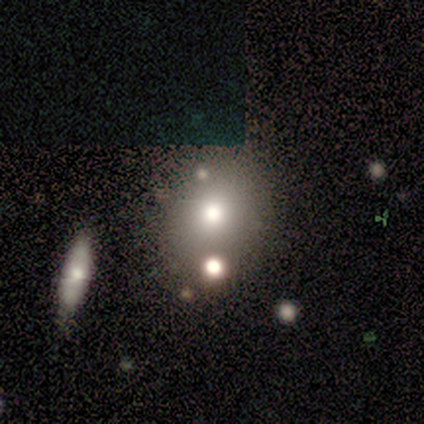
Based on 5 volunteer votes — Morphology: type=smooth (60%); roundness=in between (67%); merging=none (60%).